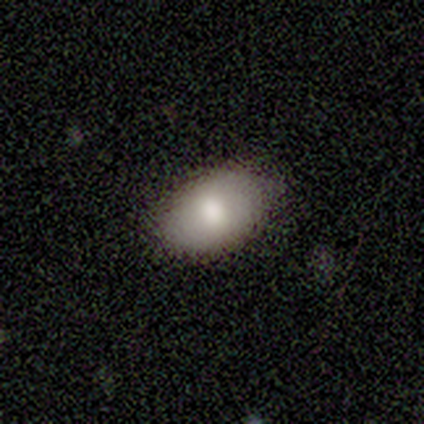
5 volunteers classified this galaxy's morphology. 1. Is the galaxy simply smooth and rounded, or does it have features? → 100% smooth, 0% featured or disk, 0% star or artifact.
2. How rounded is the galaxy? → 100% in between, 0% round, 0% cigar-shaped.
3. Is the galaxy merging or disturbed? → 80% none, 20% minor disturbance, 0% major disturbance, 0% merger.